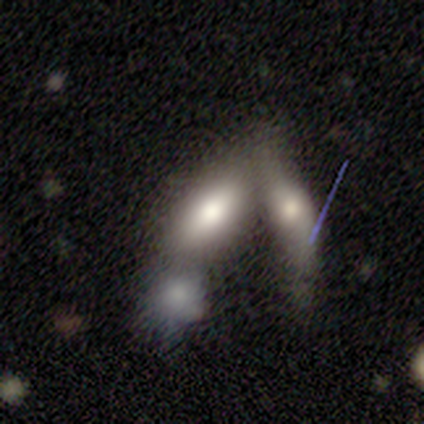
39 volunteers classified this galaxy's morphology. type=smooth (67%); roundness=in between (96%); merging=merger (64%).